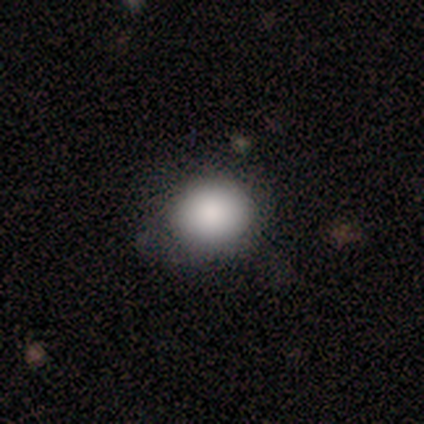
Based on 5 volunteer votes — A smooth galaxy with no disk features (80%) that is round (100%). Merging: none (100%).